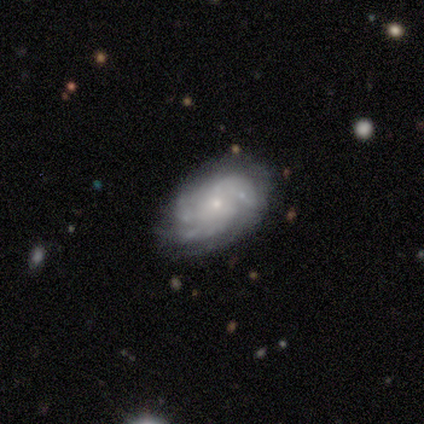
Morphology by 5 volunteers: This appears to be a featured or disk galaxy (80%) with no bar (100%), 3 (50%, tied with can't tell) tight (50%) spiral arms (100%) and a small central bulge (75%). Merging: none (100%).